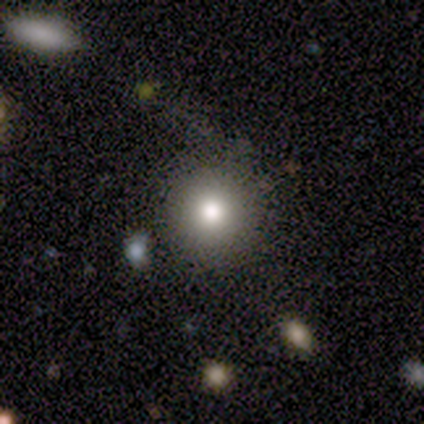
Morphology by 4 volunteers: type=smooth (75%); roundness=round (100%); merging=minor disturbance (67%).